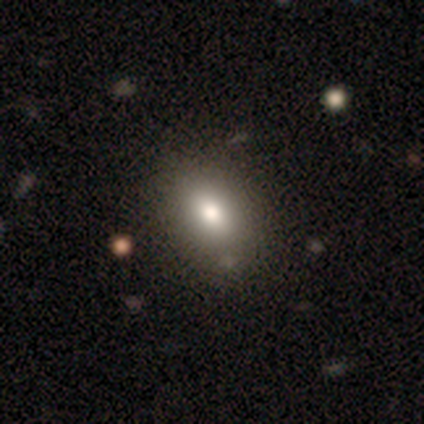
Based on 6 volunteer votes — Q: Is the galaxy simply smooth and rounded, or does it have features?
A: smooth — 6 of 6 (100%).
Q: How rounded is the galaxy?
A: in between — 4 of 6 (67%).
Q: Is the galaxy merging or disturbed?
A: none — 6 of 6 (100%).